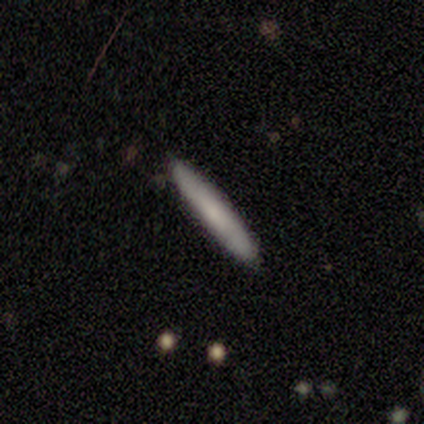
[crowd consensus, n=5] Smooth or featured: smooth — 80% (featured or disk — 20%)
How rounded: cigar-shaped — 100%
Merging: none — 100%